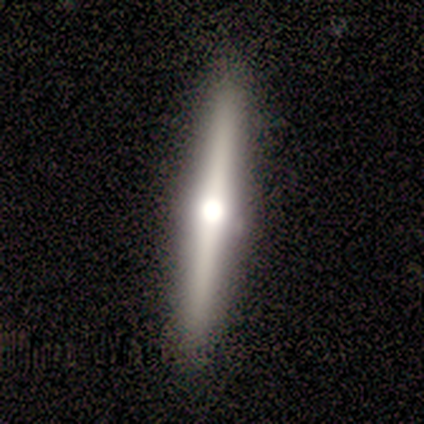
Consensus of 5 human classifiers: smooth-or-featured: featured or disk: 100% | smooth: 0% | star or artifact: 0%
  disk-edge-on: yes: 80% | no: 20%
    edge-on-bulge: rounded: 100% | boxy: 0% | none: 0%
  merging: none: 80% | minor disturbance: 20% | major disturbance: 0% | merger: 0%